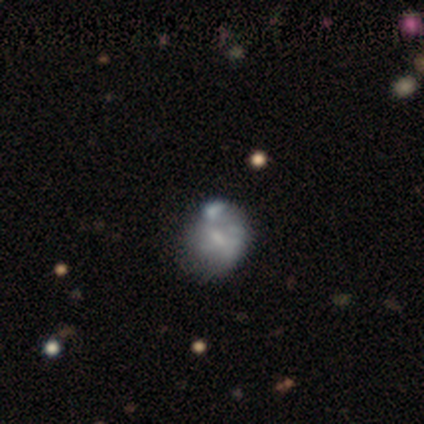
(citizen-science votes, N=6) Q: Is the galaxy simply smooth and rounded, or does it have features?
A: smooth — 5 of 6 (83%).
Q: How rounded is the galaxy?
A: round — 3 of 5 (60%).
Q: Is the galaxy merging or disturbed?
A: minor disturbance — 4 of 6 (67%).